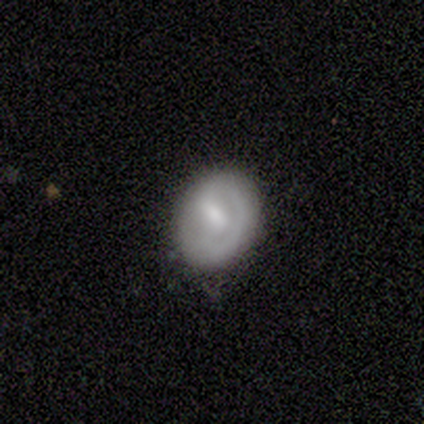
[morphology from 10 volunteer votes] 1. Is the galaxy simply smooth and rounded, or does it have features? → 50% smooth (tied), 50% featured or disk (tied), 0% star or artifact.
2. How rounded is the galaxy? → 80% in between, 20% round, 0% cigar-shaped.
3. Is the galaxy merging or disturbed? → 70% none, 30% minor disturbance, 0% major disturbance, 0% merger.